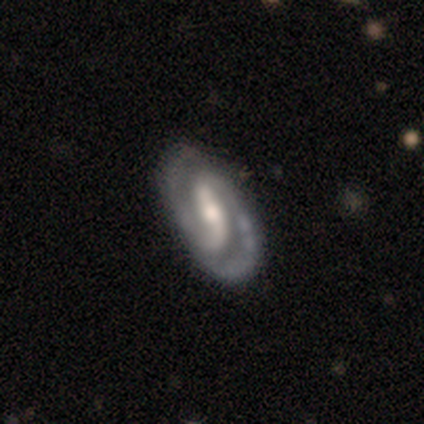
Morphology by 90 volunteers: Smooth or featured? featured or disk (86%)
Edge-on disk? no (97%)
Bar? strong (47%)
Spiral arms? yes (95%)
Spiral winding? tight (46%)
Spiral arm count? 2 (92%)
Bulge size? moderate (53%)
Merging? none (81%)